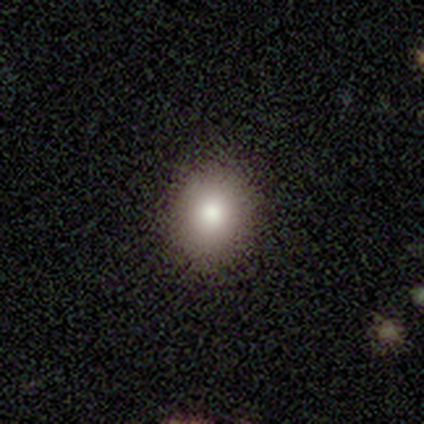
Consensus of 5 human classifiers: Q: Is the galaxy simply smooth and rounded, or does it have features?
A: smooth — 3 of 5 (60%).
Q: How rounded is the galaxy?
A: round — 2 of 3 (67%).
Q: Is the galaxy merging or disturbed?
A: none — 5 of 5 (100%).